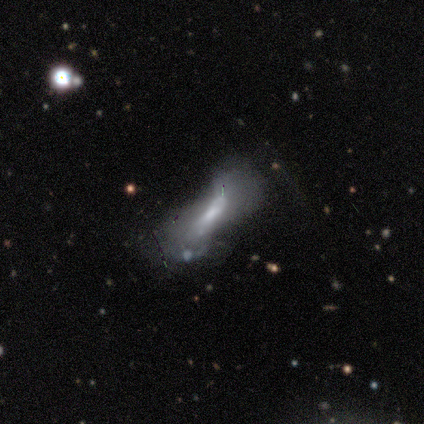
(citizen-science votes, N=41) Morphology: type=featured or disk (61%); edge-on=no (68%); bar=weak (41%, tied with no); spiral arms=no (71%); bulge=moderate (35%, tied with small); merging=major disturbance (54%).